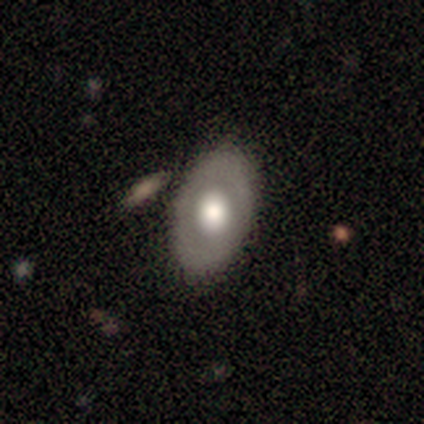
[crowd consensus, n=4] Volunteers were most divided on "how rounded": in between: 67%, round: 33%, cigar-shaped: 0%. More confident: merging — none (100%); smooth or featured — smooth (75%).